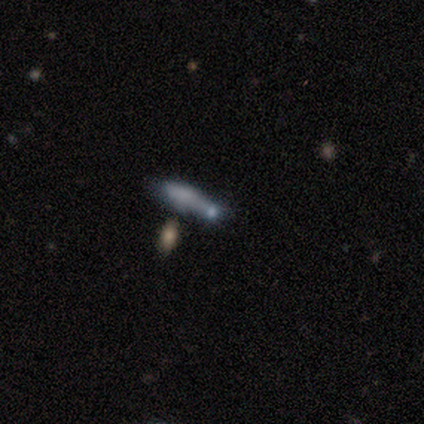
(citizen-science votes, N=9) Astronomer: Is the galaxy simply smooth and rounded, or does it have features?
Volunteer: smooth — 89%.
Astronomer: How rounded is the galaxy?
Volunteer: cigar-shaped — 50% (runner-up: in between, 38%).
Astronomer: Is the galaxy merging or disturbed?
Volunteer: minor disturbance — 44% (runner-up: merger, 33%).